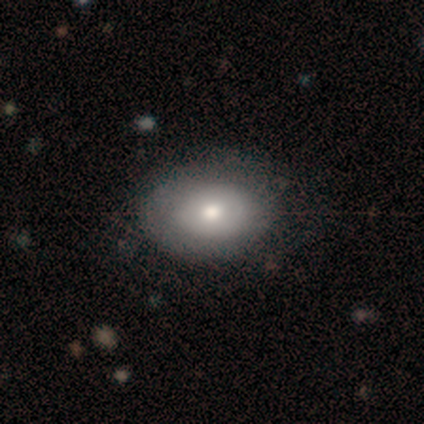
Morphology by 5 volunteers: This appears to be a smooth galaxy with no disk features (40%, tied with featured or disk) that is in between round and cigar-shaped (100%). Merging: none (100%).